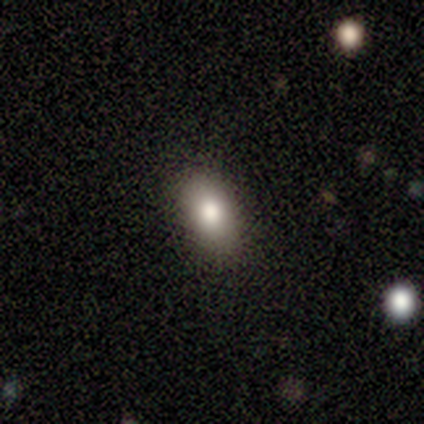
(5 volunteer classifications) A smooth galaxy with no disk features (100%) that is in between round and cigar-shaped (100%).

Vote fractions:
- Smooth or featured? smooth: 100% / featured or disk: 0% / star or artifact: 0%
- How rounded? in between: 100% / round: 0% / cigar-shaped: 0%
- Merging? none: 100% / minor disturbance: 0% / major disturbance: 0% / merger: 0%